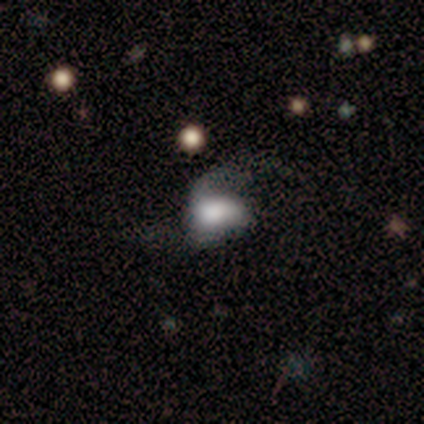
A smooth galaxy with no disk features (60%) that is in between round and cigar-shaped (100%).

Vote fractions:
- Smooth or featured? smooth: 60% / featured or disk: 40% / star or artifact: 0%
- How rounded? in between: 100% / round: 0% / cigar-shaped: 0%
- Merging? none: 40% / minor disturbance: 20% / major disturbance: 20% / merger: 20%